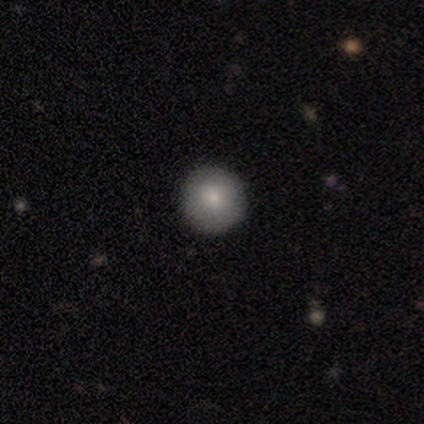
Overall: smooth (100%). How rounded: round (100%). Merging: none (100%).